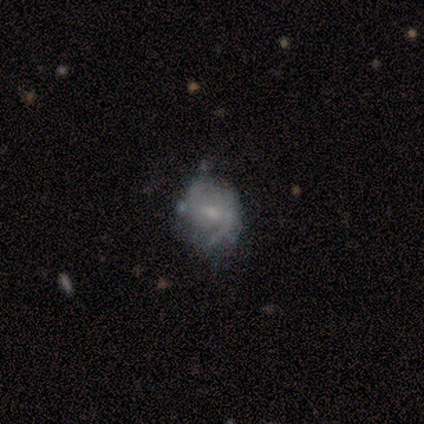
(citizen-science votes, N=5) Volunteers were most divided on "smooth or featured": featured or disk: 60%, star or artifact: 40%, smooth: 0%. More confident: edge-on disk — no (100%); spiral arms — yes (100%); spiral arm count — 2 (100%); bar — weak (67%); spiral winding — medium (67%); bulge size — small (67%); merging — none (67%).